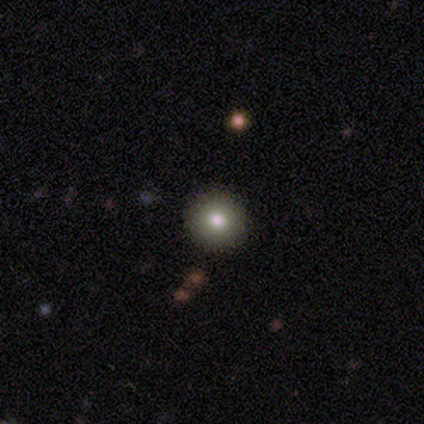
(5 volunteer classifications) smooth_or_featured: smooth (p=0.60) [alt: star or artifact p=0.40]
how_rounded: round (p=1.00)
merging: none (p=1.00)